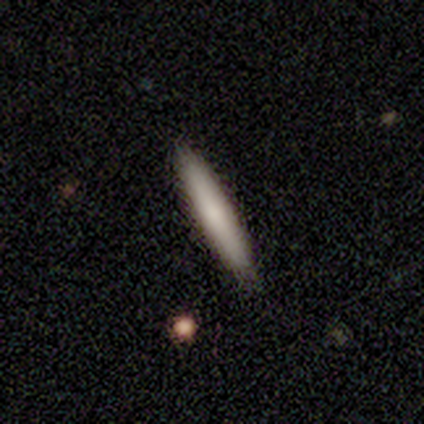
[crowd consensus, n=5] Morphology: type=smooth (40%, tied with featured or disk); roundness=cigar-shaped (100%); merging=none (100%).